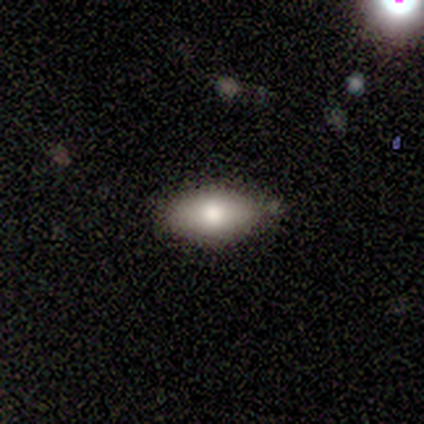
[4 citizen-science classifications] Q: Smooth or featured?
A: smooth (100%)
Q: How rounded?
A: in between (100%)
Q: Merging?
A: none (50%); tied with: minor disturbance (50%)